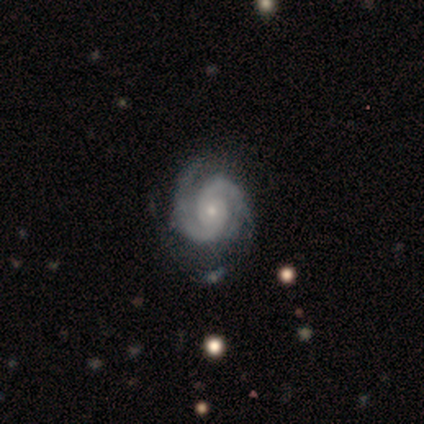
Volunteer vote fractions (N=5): Q: Smooth or featured?
A: featured or disk (100%)
Q: Edge-on disk?
A: no (100%)
Q: Bar?
A: no (80%); runner-up: weak (20%)
Q: Spiral arms?
A: yes (100%)
Q: Spiral winding?
A: tight (60%); runner-up: medium (40%)
Q: Spiral arm count?
A: 2 (100%)
Q: Bulge size?
A: small (80%); runner-up: none (20%)
Q: Merging?
A: none (60%); runner-up: minor disturbance (40%)